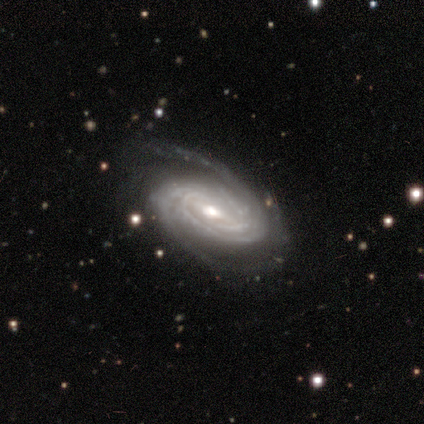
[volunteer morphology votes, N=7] type=featured or disk (100%); edge-on=no (100%); bar=no (57%); spiral arms=yes (100%); winding=tight (71%); arm count=2 (57%); bulge=moderate (86%); merging=none (86%).